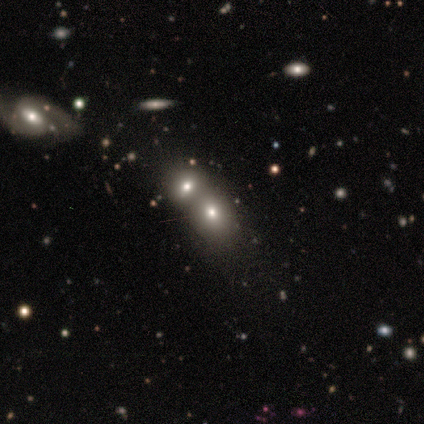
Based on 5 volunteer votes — Q: Smooth or featured?
A: smooth (80%); runner-up: featured or disk (20%)
Q: How rounded?
A: round (100%)
Q: Merging?
A: none (60%); runner-up: merger (40%)